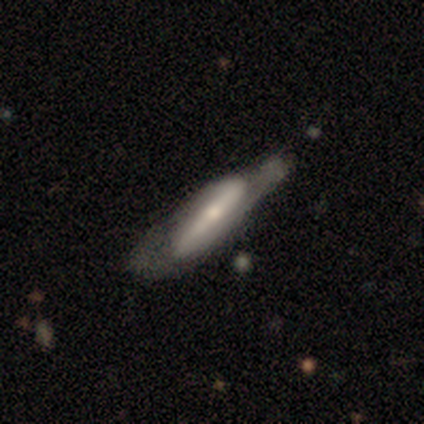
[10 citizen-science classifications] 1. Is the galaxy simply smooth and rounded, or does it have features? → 70% featured or disk, 20% smooth, 10% star or artifact.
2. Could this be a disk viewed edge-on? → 71% no, 29% yes.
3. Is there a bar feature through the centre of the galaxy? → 60% strong, 20% weak, 20% no.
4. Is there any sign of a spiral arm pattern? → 80% yes, 20% no.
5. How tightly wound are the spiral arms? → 75% medium, 25% loose, 0% tight.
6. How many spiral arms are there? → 100% 2, 0% 1, 0% 3, 0% 4, 0% more than 4, 0% can't tell.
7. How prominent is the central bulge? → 60% moderate, 40% small, 0% dominant, 0% large, 0% none.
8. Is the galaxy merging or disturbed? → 56% none, 33% minor disturbance, 11% major disturbance, 0% merger.